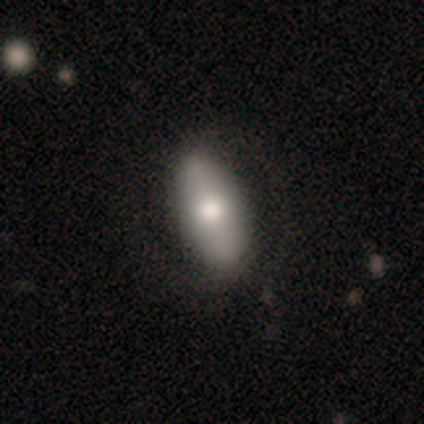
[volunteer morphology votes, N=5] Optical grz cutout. It shows a featured or disk galaxy (100%) with no bar (60%), no spiral arms (60%) and a large central bulge (40%). Merging: none (100%).